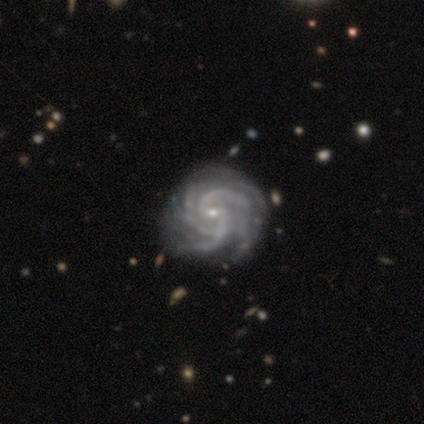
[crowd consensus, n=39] This is clearly a featured or disk galaxy (100%). It is clearly not viewed edge-on (100%). Bar: possibly no (56%). Spiral arm pattern: clearly yes (100%). Spiral arm count: marginally 3 (33%, tied with 4). Spiral winding: clearly tight (85%). Central bulge: clearly small (82%). Merging: possibly none (56%).